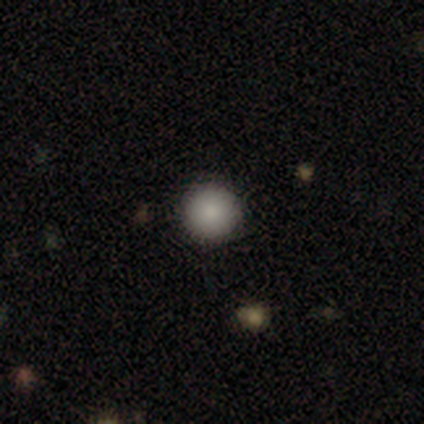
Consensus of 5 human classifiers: This appears to be a smooth galaxy with no disk features (60%) that is round (100%). Merging: none (100%).